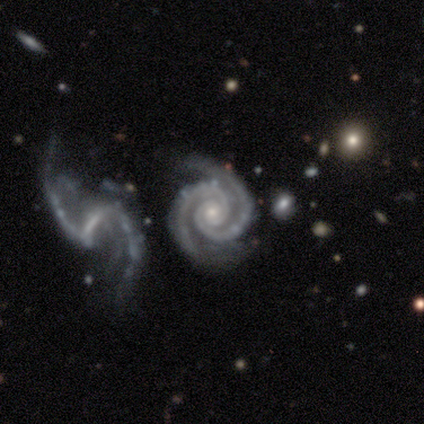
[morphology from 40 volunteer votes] A featured or disk galaxy (95%) with no bar (76%), 2 (95%) tight (76%) spiral arms (100%) and a small central bulge (76%).

Vote fractions:
- Smooth or featured? featured or disk: 95% / star or artifact: 5% / smooth: 0%
- Edge-on disk? no: 97% / yes: 3%
- Bar? no: 76% / strong: 16% / weak: 8%
- Spiral arms? yes: 100% / no: 0%
- Spiral winding? tight: 76% / medium: 19% / loose: 5%
- Spiral arm count? 2: 95% / 3: 3% / 4: 3% / 1: 0% / more than 4: 0% / can't tell: 0%
- Bulge size? small: 76% / moderate: 24% / dominant: 0% / large: 0% / none: 0%
- Merging? none: 66% / minor disturbance: 18% / merger: 13% / major disturbance: 3%